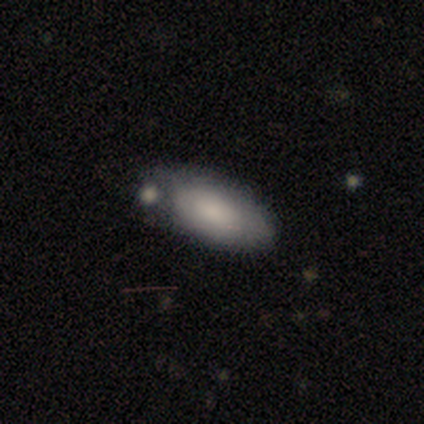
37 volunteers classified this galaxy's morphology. This is likely a smooth galaxy (73%). How rounded: clearly in between (96%). Merging: possibly none (52%).